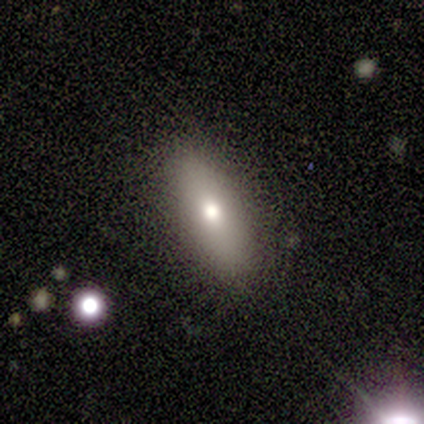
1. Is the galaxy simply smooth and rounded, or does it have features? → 80% smooth, 20% featured or disk, 0% star or artifact.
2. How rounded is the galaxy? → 100% in between, 0% round, 0% cigar-shaped.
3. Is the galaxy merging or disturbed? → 100% none, 0% minor disturbance, 0% major disturbance, 0% merger.